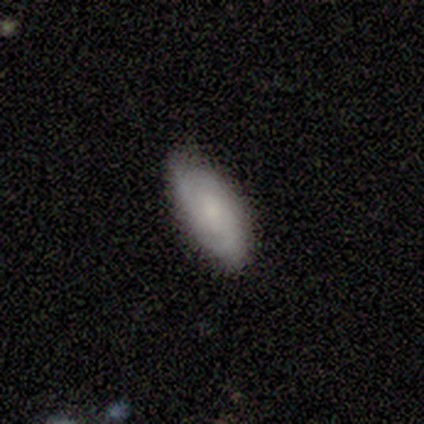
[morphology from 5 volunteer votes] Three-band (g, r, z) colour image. It shows a smooth galaxy with no disk features (60%) that is in between round and cigar-shaped (100%). Merging: none (80%).